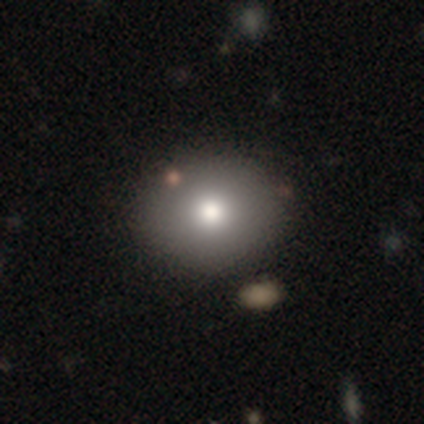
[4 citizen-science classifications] smooth 75%, featured or disk 25%, star or artifact 0%. Down the decision tree: how rounded — round (67%); merging — none (100%).